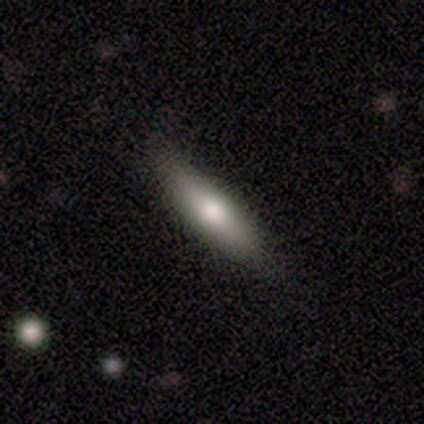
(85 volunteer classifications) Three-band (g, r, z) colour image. It shows a smooth galaxy with no disk features (76%) that is cigar-shaped (63%). Merging: none (86%).